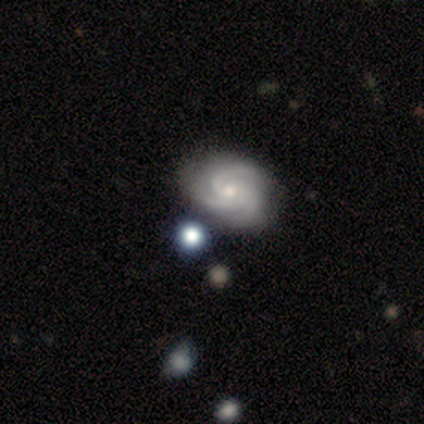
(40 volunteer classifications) This is clearly a featured or disk galaxy (90%). It is clearly not viewed edge-on (97%). Bar: clearly no (86%). Spiral arm pattern: clearly yes (97%). Spiral arm count: clearly 3 (88%). Spiral winding: possibly medium (50%). Central bulge: possibly small (51%). Merging: likely none (66%).